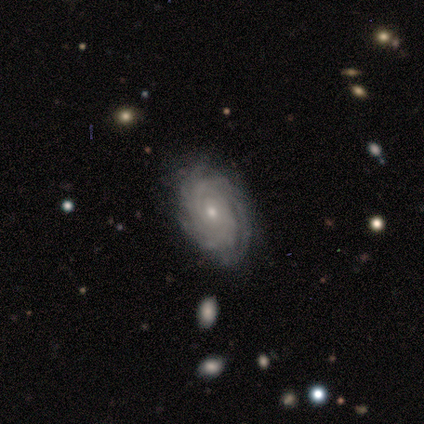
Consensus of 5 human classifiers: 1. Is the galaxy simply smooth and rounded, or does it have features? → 100% featured or disk, 0% smooth, 0% star or artifact.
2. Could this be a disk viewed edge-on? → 100% no, 0% yes.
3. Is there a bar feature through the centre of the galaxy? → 100% no, 0% strong, 0% weak.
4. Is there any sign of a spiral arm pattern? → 100% yes, 0% no.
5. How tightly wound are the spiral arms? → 100% tight, 0% medium, 0% loose.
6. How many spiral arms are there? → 40% can't tell, 20% 3, 20% 4, 20% more than 4, 0% 1, 0% 2.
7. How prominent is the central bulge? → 60% small, 40% moderate, 0% dominant, 0% large, 0% none.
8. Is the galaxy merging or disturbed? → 80% none, 20% minor disturbance, 0% major disturbance, 0% merger.